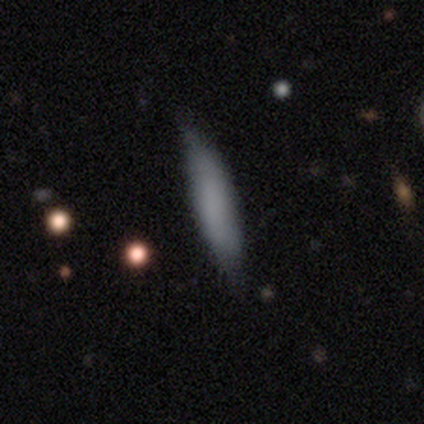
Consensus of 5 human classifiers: A smooth galaxy with no disk features (80%) that is cigar-shaped (100%). Merging: none (80%).